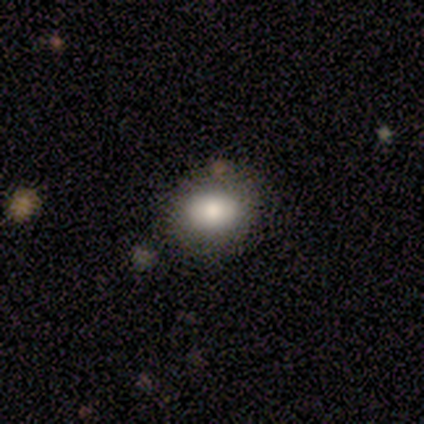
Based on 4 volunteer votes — Overall: smooth (100%). How rounded: in between (75%). Merging: none (100%).